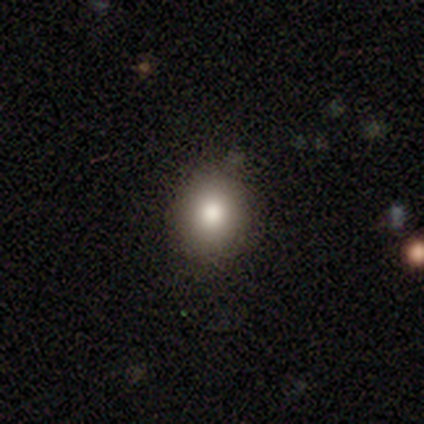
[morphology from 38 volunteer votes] Smooth or featured? smooth (68%)
How rounded? round (77%)
Merging? none (90%)